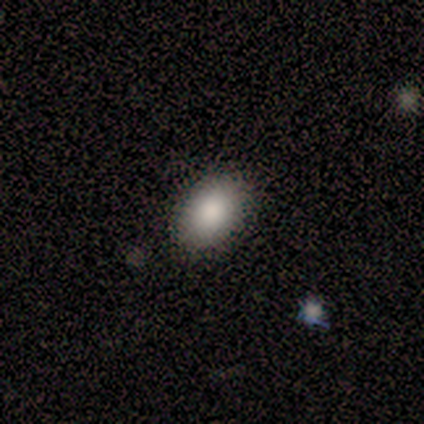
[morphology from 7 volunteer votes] Q: Smooth or featured?
A: smooth (100%)
Q: How rounded?
A: in between (100%)
Q: Merging?
A: none (100%)